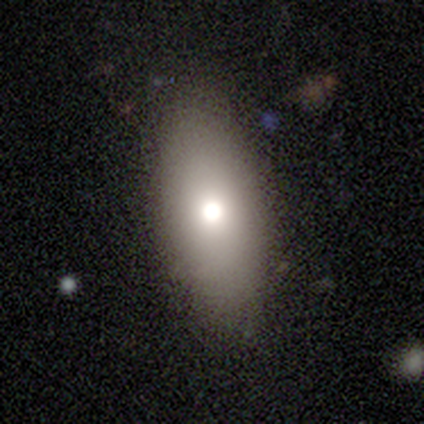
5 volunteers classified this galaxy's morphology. smooth_or_featured: smooth (p=1.00)
how_rounded: in between (p=1.00)
merging: none (p=1.00)